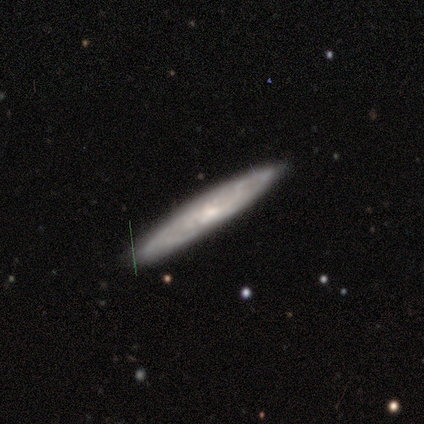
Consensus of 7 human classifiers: Smooth or featured? smooth (57%)
How rounded? cigar-shaped (75%)
Merging? none (100%)